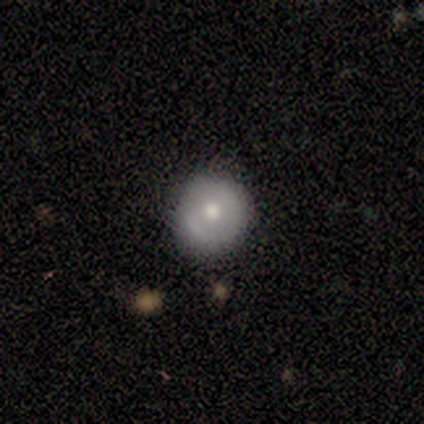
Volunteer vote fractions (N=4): This is likely a smooth galaxy (75%). How rounded: clearly round (100%). Merging: clearly none (100%).